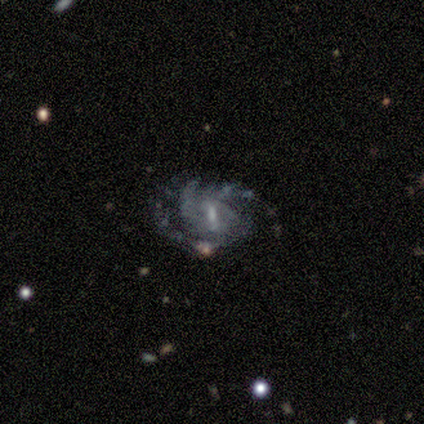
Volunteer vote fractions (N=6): Smooth or featured? 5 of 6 (83%) said featured or disk. Edge-on disk? 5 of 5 (100%) said no. Bar? 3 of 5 (60%) said weak. Spiral arms? 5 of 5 (100%) said yes. Spiral winding? 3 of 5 (60%) said tight. Spiral arm count? 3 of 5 (60%) said 3. Bulge size? 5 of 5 (100%) said small. Merging? 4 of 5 (80%) said none.